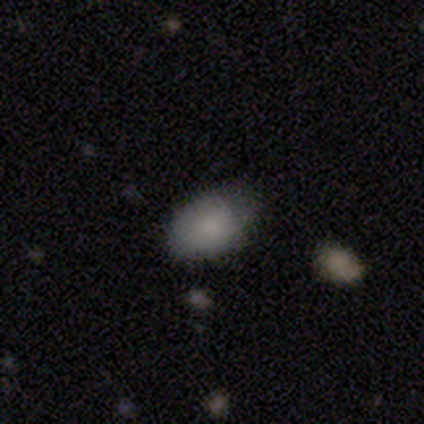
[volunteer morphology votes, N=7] smooth 100%, featured or disk 0%, star or artifact 0%. Down the decision tree: how rounded — in between (86%); merging — none (57%).